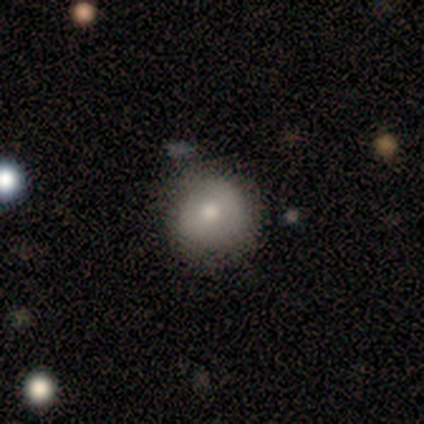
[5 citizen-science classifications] A smooth galaxy with no disk features (80%) that is round (100%). Merging: none (80%).